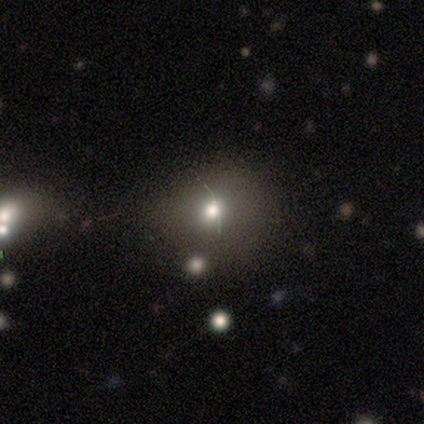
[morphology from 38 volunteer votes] Smooth or featured?
  - smooth: 53% *
  - featured or disk: 26%
  - star or artifact: 21%
How rounded?
  - round: 70% *
  - in between: 30%
  - cigar-shaped: 0%
Merging?
  - none: 73% *
  - minor disturbance: 27%
  - major disturbance: 0%
  - merger: 0%